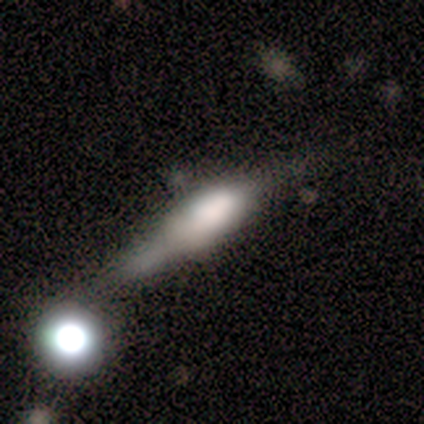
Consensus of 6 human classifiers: Smooth or featured? 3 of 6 (50%) said featured or disk. Edge-on disk? 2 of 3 (67%) said yes. Edge-on bulge? 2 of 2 (100%) said boxy. Merging? 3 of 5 (60%) said none.